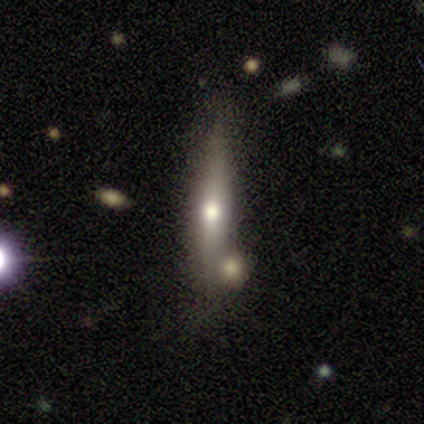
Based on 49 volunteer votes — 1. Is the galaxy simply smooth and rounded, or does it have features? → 47% featured or disk, 45% smooth, 8% star or artifact.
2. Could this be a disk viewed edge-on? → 78% yes, 22% no.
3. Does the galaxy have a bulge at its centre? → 94% rounded, 6% none, 0% boxy.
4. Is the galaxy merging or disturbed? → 36% none, 33% merger, 31% minor disturbance, 0% major disturbance.